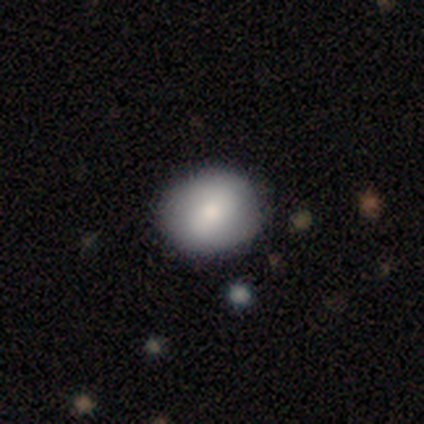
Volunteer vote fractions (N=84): Overall: smooth (74%). How rounded: round (84%). Merging: none (90%).